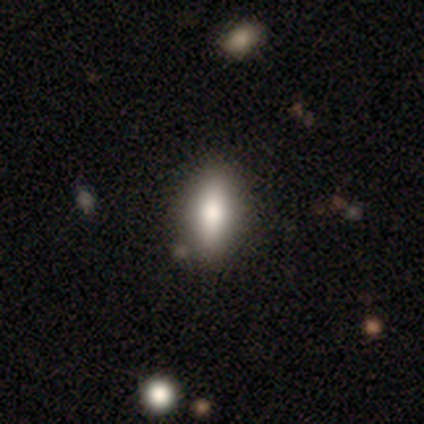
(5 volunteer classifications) Morphology: type=smooth (80%); roundness=in between (75%); merging=none (100%).